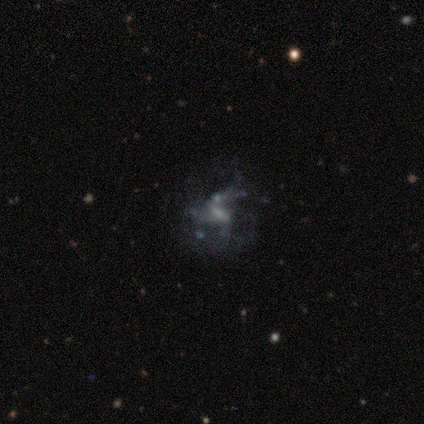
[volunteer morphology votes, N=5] smooth_or_featured: featured or disk (p=0.80) [alt: star or artifact p=0.20]
disk_edge_on: no (p=1.00)
bar: strong (p=0.50) [alt: weak p=0.25]
has_spiral_arms: yes (p=0.50) [tied with: no p=0.50]
spiral_winding: loose (p=1.00)
spiral_arm_count: 2 (p=0.50) [tied with: 3 p=0.50]
bulge_size: moderate (p=0.50) [alt: small p=0.25]
merging: none (p=0.50) [alt: major disturbance p=0.25]